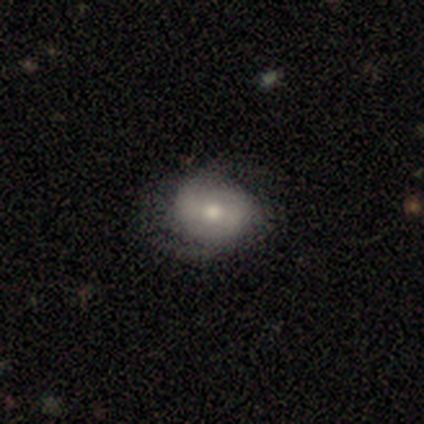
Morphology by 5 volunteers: smooth_or_featured: smooth (p=0.40) [tied with: featured or disk p=0.40]
how_rounded: round (p=0.50) [tied with: in between p=0.50]
merging: none (p=0.75) [alt: major disturbance p=0.25]